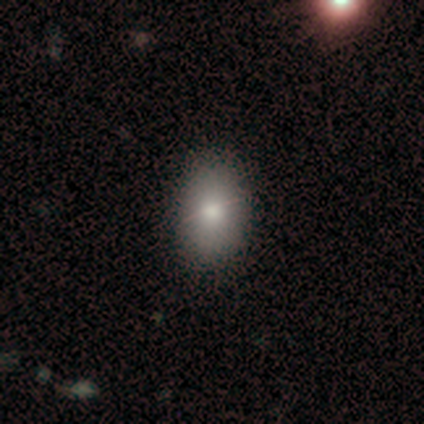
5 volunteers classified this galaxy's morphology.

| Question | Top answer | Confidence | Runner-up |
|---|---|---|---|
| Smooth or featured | smooth | 80% | star or artifact (20%) |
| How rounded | in between | 75% | round (25%) |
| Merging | none | 75% | minor disturbance (25%) |